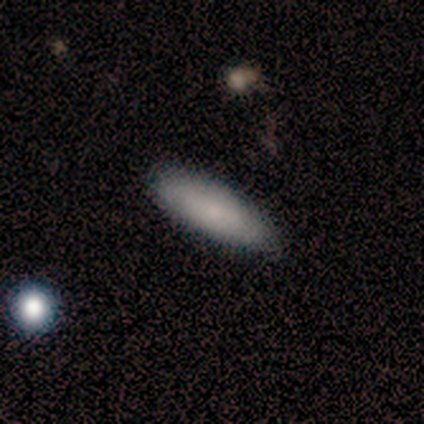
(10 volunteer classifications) Smooth or featured: smooth — 80% (featured or disk — 20%)
How rounded: in between — 50% (tied with cigar-shaped — 50%)
Merging: none — 100%